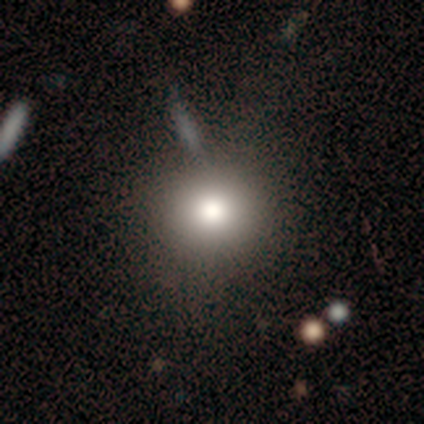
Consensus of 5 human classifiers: A smooth galaxy with no disk features (80%) that is round (100%). Merging: none (80%).